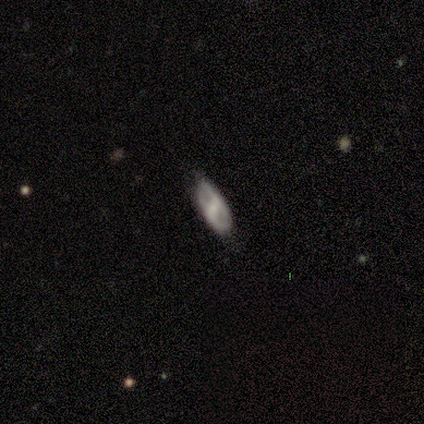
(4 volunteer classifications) Smooth or featured: smooth — 50% (tied with featured or disk — 50%)
How rounded: in between — 50% (tied with cigar-shaped — 50%)
Merging: none — 100%